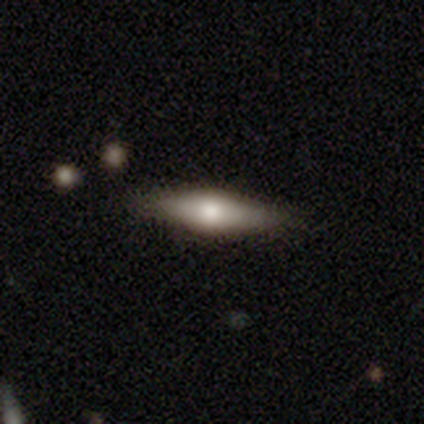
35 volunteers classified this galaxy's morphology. Q: Smooth or featured?
A: smooth (43%); tied with: featured or disk (43%)
Q: How rounded?
A: in between (67%); runner-up: cigar-shaped (33%)
Q: Merging?
A: none (87%); runner-up: minor disturbance (13%)